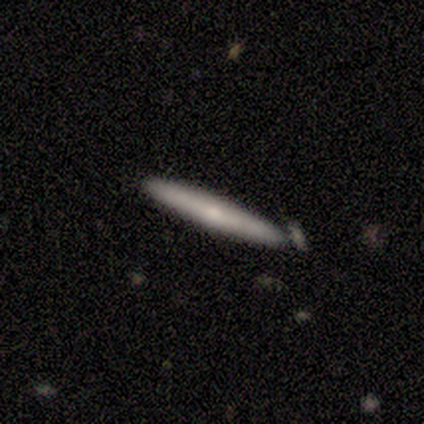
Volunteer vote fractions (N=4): A smooth galaxy with no disk features (50%, tied with featured or disk) that is cigar-shaped (100%). Merging: none (75%).